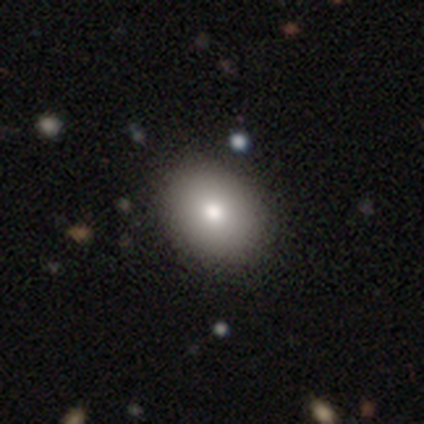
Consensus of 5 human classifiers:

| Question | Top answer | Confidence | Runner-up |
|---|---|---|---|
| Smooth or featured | smooth | 60% | featured or disk (40%) |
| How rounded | in between | 67% | round (33%) |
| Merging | none | 80% | minor disturbance (20%) |